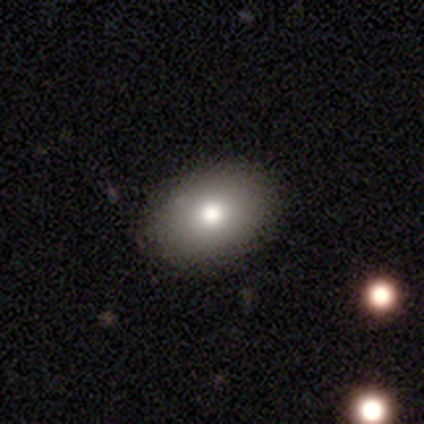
smooth 74%, featured or disk 16%, star or artifact 11%. Down the decision tree: how rounded — in between (71%); merging — none (88%).